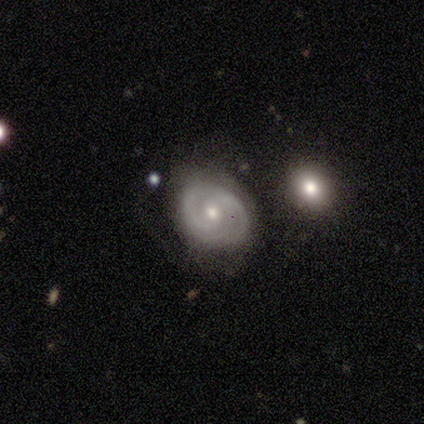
Smooth or featured? 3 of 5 (60%) said featured or disk. Edge-on disk? 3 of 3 (100%) said no. Bar? 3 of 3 (100%) said no. Spiral arms? 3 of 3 (100%) said yes. Spiral winding? 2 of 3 (67%) said tight. Spiral arm count? 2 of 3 (67%) said can't tell. Bulge size? 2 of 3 (67%) said moderate. Merging? 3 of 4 (75%) said none.